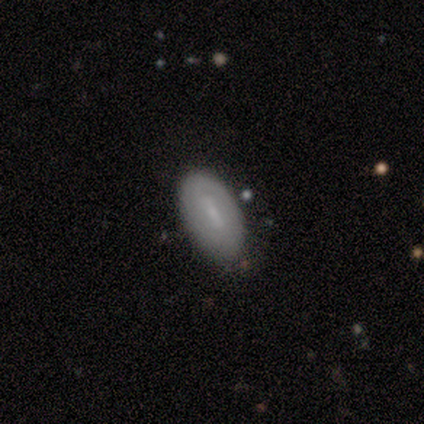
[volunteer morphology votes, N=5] A smooth galaxy with no disk features (60%) that is in between round and cigar-shaped (67%).

Vote fractions:
- Smooth or featured? smooth: 60% / featured or disk: 20% / star or artifact: 20%
- How rounded? in between: 67% / cigar-shaped: 33% / round: 0%
- Merging? none: 50% / minor disturbance: 25% / major disturbance: 25% / merger: 0%